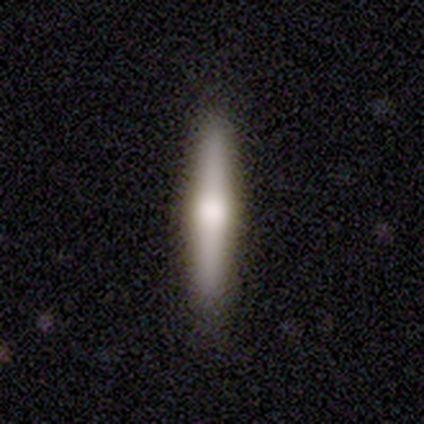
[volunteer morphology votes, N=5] A smooth galaxy with no disk features (80%) that is cigar-shaped (100%). Merging: none (100%).